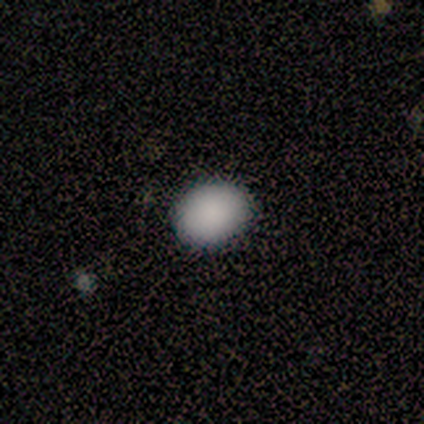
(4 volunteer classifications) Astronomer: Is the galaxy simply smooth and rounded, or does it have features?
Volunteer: smooth — 75%.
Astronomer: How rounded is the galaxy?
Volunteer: round — 67%.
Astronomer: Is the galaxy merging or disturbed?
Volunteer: none — 100%.